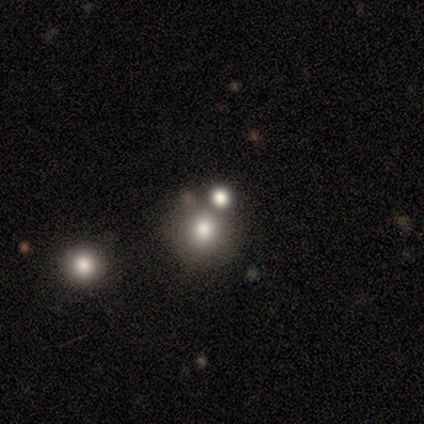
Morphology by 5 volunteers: Smooth or featured: smooth — 100%
How rounded: round — 100%
Merging: merger — 100%